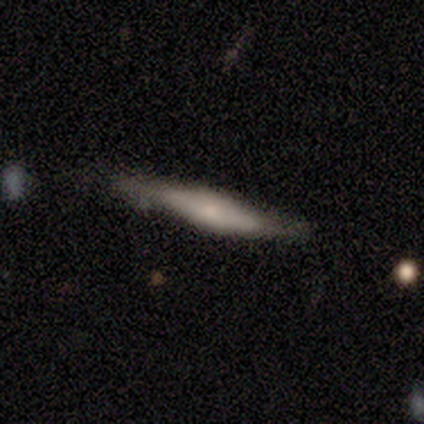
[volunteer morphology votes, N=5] Smooth or featured? smooth (60%)
How rounded? cigar-shaped (100%)
Merging? none (75%)